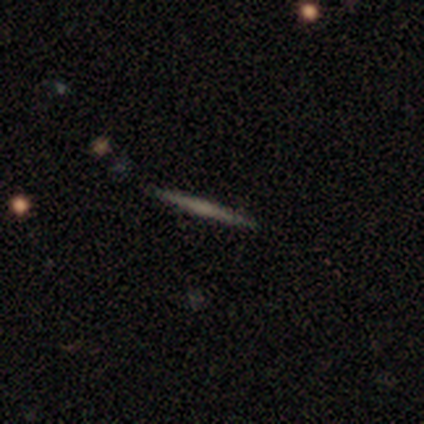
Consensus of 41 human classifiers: Smooth or featured: smooth — 46% (featured or disk — 44%)
How rounded: cigar-shaped — 100%
Merging: none — 97% (minor disturbance — 3%)